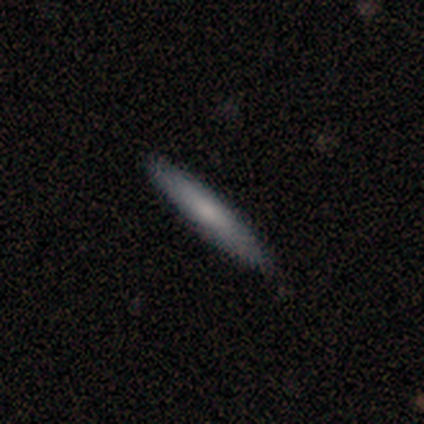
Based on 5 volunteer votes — Morphology: type=smooth (60%); roundness=cigar-shaped (100%); merging=none (100%).